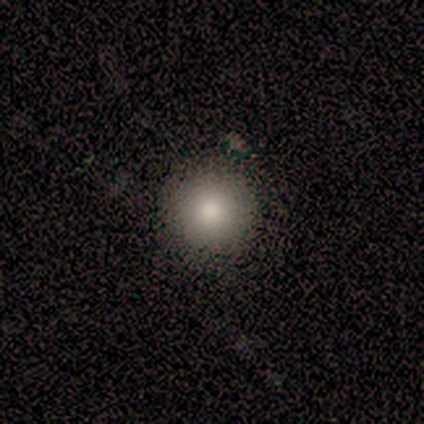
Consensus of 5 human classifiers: Morphology: type=smooth (80%); roundness=round (100%); merging=none (100%).